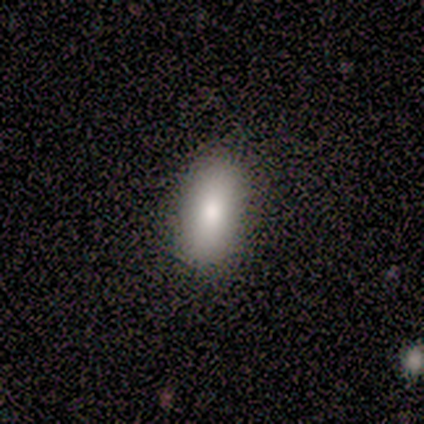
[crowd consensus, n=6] Smooth or featured?
  - smooth: 83% *
  - featured or disk: 17%
  - star or artifact: 0%
How rounded?
  - in between: 100% *
  - round: 0%
  - cigar-shaped: 0%
Merging?
  - none: 83% *
  - minor disturbance: 17%
  - major disturbance: 0%
  - merger: 0%